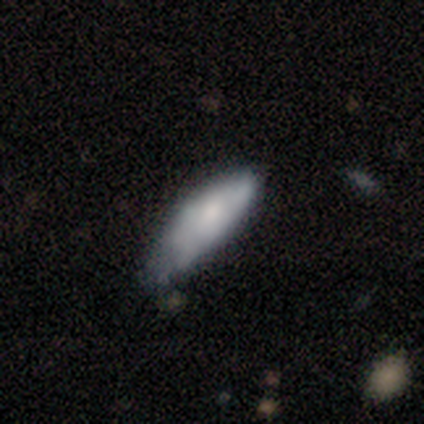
Q: Smooth or featured?
A: smooth (60%); runner-up: featured or disk (32%)
Q: How rounded?
A: in between (50%); tied with: cigar-shaped (50%)
Q: Merging?
A: none (57%); runner-up: minor disturbance (43%)